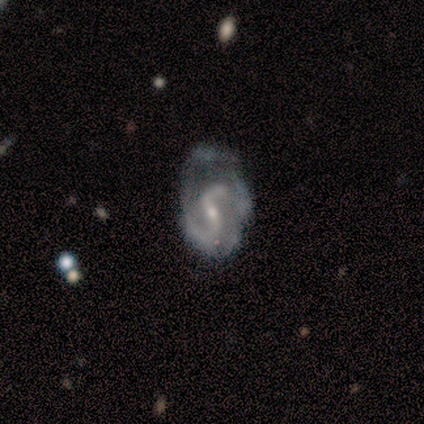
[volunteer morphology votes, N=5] type=featured or disk (80%); edge-on=no (100%); bar=strong (50%, tied with weak); spiral arms=yes (75%); winding=loose (67%); arm count=2 (100%); bulge=small (75%); merging=major disturbance (50%).